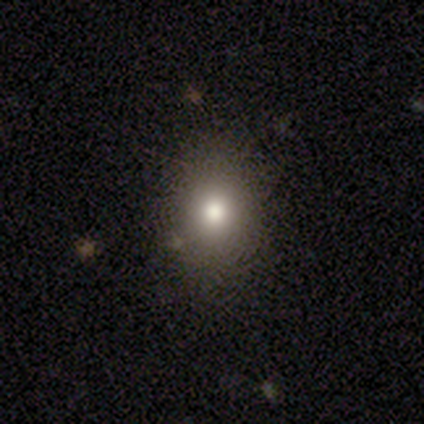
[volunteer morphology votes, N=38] Smooth or featured? smooth (71%)
How rounded? round (63%)
Merging? none (79%)